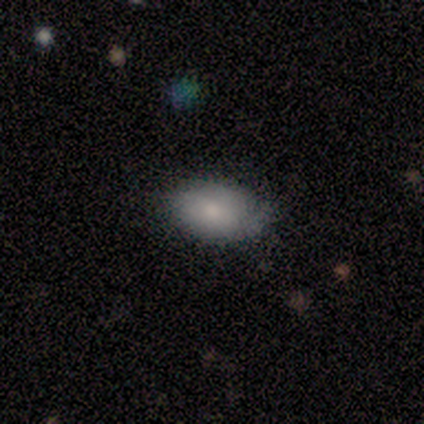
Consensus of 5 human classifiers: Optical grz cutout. It shows a smooth galaxy with no disk features (60%) that is in between round and cigar-shaped (100%). Merging: none (100%).